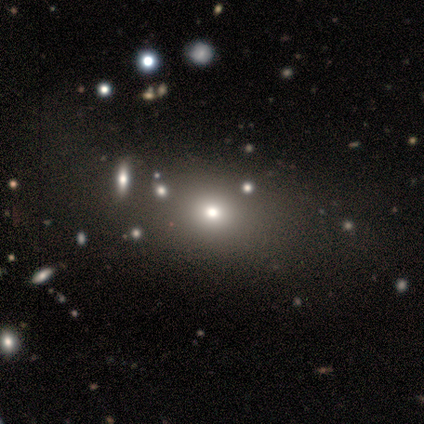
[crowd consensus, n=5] This is clearly a smooth galaxy (80%). How rounded: possibly round (50%, tied with in between). Merging: likely none (75%).